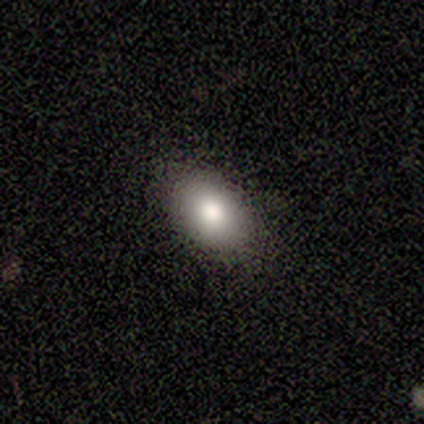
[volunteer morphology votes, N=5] This appears to be a smooth galaxy with no disk features (100%) that is in between round and cigar-shaped (100%). Merging: none (80%).